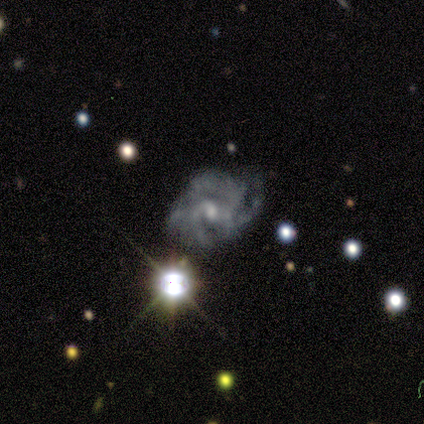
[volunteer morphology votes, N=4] Smooth or featured? 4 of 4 (100%) said featured or disk. Edge-on disk? 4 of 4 (100%) said no. Bar? 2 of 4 (50%, tied with no) said weak. Spiral arms? 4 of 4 (100%) said yes. Spiral winding? 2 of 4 (50%) said medium. Spiral arm count? 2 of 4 (50%, tied with can't tell) said 4. Bulge size? 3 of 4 (75%) said moderate. Merging? 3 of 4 (75%) said major disturbance.